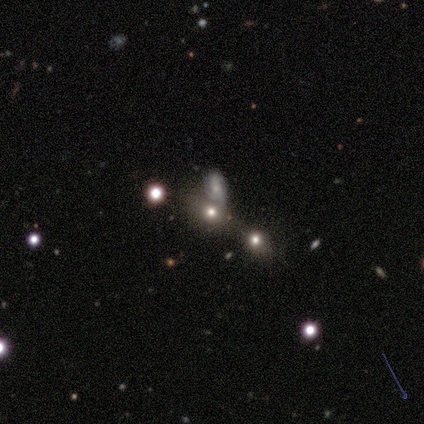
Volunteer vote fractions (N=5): A smooth galaxy with no disk features (60%) that is round (67%). Merging: none (67%).